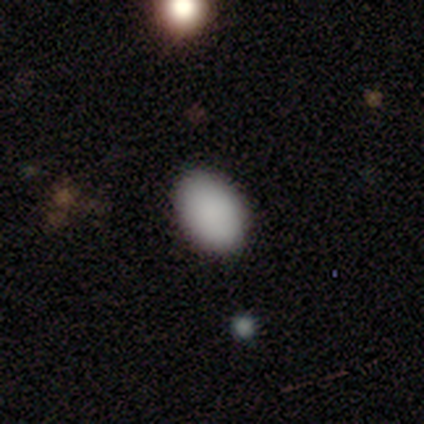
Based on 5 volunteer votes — Overall: smooth (100%). How rounded: in between (80%). Merging: none (80%).